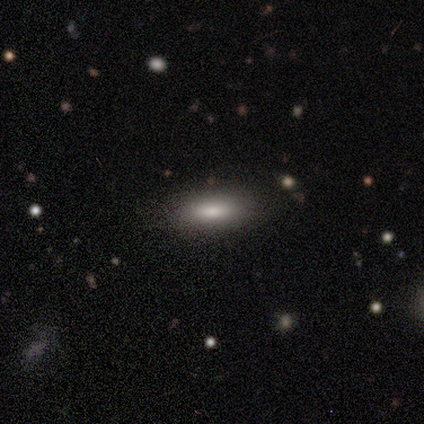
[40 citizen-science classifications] A smooth galaxy with no disk features (72%) that is in between round and cigar-shaped (52%).

Vote fractions:
- Smooth or featured? smooth: 72% / star or artifact: 15% / featured or disk: 12%
- How rounded? in between: 52% / cigar-shaped: 48% / round: 0%
- Merging? none: 82% / minor disturbance: 12% / major disturbance: 3% / merger: 3%